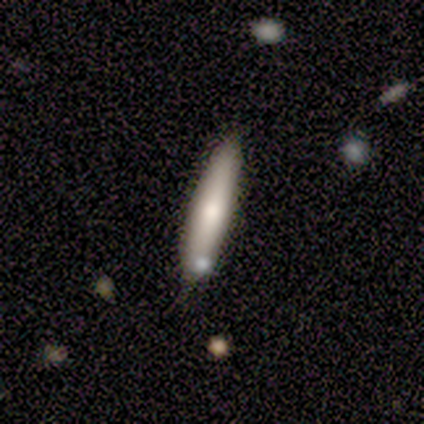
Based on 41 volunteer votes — smooth 71%, featured or disk 20%, star or artifact 10%. Down the decision tree: how rounded — cigar-shaped (97%); merging — none (84%).